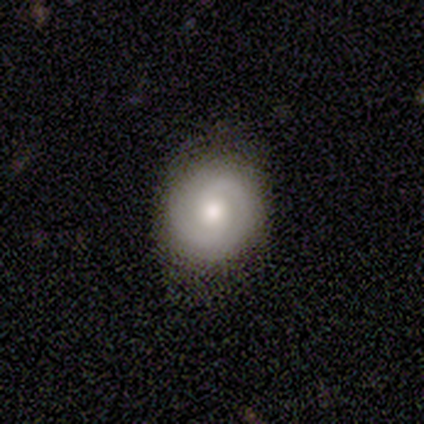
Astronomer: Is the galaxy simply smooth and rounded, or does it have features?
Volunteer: featured or disk — 83%.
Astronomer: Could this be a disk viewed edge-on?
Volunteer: no — 100%.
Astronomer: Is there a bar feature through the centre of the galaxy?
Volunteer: no — 60% (runner-up: weak, 40%).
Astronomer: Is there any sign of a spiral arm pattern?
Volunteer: yes — 80%.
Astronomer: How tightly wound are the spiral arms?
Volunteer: tight — 75%.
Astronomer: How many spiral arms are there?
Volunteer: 2 — 75%.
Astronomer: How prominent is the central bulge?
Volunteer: large — 60% (runner-up: moderate, 40%).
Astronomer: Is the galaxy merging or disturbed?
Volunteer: none — 50%, tied with minor disturbance at 50%.